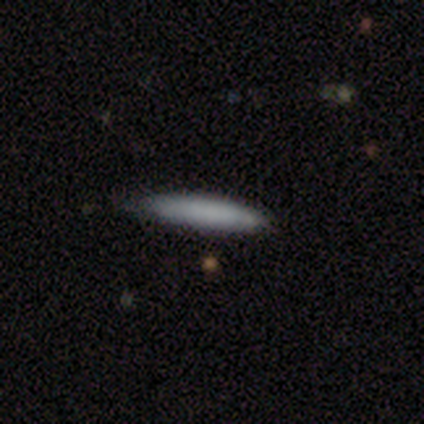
Smooth or featured: smooth — 77% (featured or disk — 15%)
How rounded: cigar-shaped — 93% (in between — 7%)
Merging: none — 81% (minor disturbance — 19%)